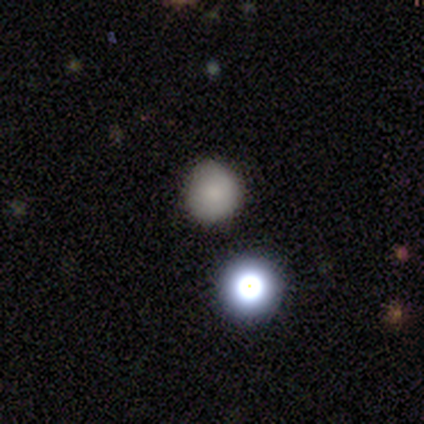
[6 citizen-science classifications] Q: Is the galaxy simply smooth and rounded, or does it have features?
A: smooth — 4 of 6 (67%).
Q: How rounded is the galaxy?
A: round — 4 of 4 (100%).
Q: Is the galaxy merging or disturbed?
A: none — 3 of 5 (60%).